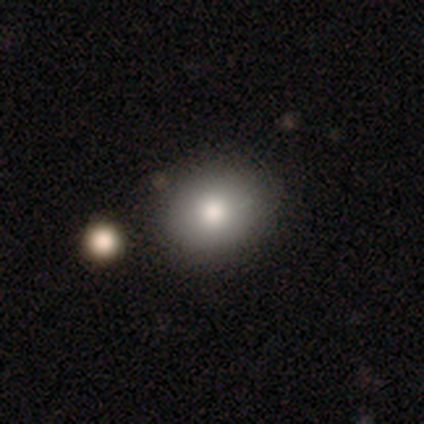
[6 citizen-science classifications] smooth 83%, featured or disk 17%, star or artifact 0%. Down the decision tree: how rounded — in between (80%); merging — none (83%).